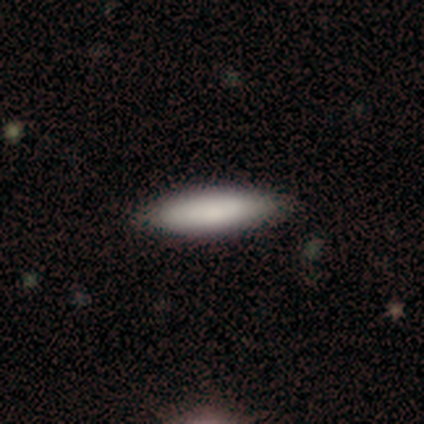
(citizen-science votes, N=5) This appears to be a smooth galaxy with no disk features (80%) that is cigar-shaped (75%). Merging: none (80%).